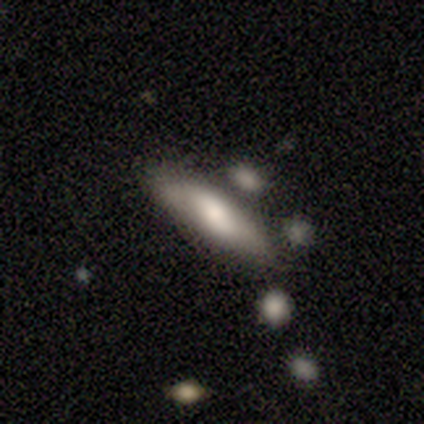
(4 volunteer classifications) smooth_or_featured: smooth (p=0.75) [alt: featured or disk p=0.25]
how_rounded: in between (p=0.67) [alt: cigar-shaped p=0.33]
merging: none (p=0.75) [alt: minor disturbance p=0.25]